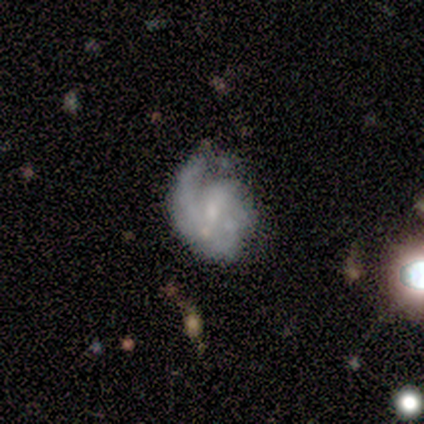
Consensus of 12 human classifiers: A featured or disk galaxy (100%) with no bar (45%), 1 (30%, tied with 2 and can't tell) medium (40%) spiral arms (91%) and a small central bulge (73%).

Vote fractions:
- Smooth or featured? featured or disk: 100% / smooth: 0% / star or artifact: 0%
- Edge-on disk? no: 92% / yes: 8%
- Bar? no: 45% / weak: 36% / strong: 18%
- Spiral arms? yes: 91% / no: 9%
- Spiral winding? medium: 40% / tight: 30% / loose: 30%
- Spiral arm count? 1: 30% (tied) / 2: 30% (tied) / can't tell: 30% (tied) / 3: 10% / 4: 0% / more than 4: 0%
- Bulge size? small: 73% / large: 9% / moderate: 9% / none: 9% / dominant: 0%
- Merging? none: 67% / minor disturbance: 33% / major disturbance: 0% / merger: 0%